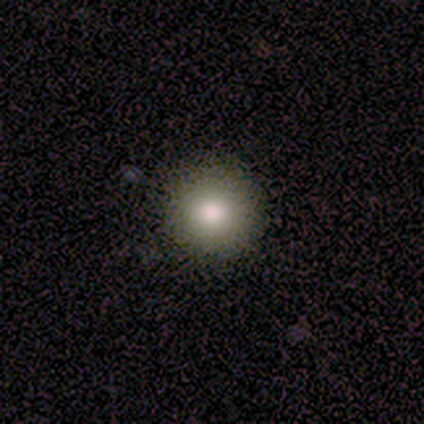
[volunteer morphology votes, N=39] Smooth or featured? smooth (79%)
How rounded? round (97%)
Merging? none (91%)